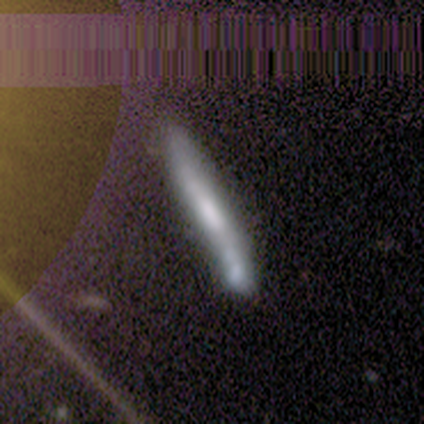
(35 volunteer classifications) smooth-or-featured: featured or disk: 43% | smooth: 40% | star or artifact: 17%
  disk-edge-on: yes: 67% | no: 33%
    edge-on-bulge: none: 50% | boxy: 30% | rounded: 20%
  merging: none: 48% | minor disturbance: 24% | merger: 24% | major disturbance: 3%